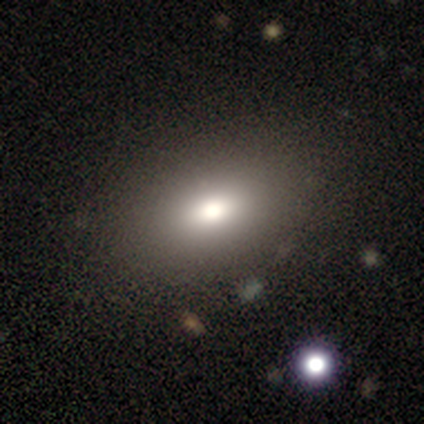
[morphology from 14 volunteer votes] smooth 71%, featured or disk 21%, star or artifact 7%. Down the decision tree: how rounded — in between (80%); merging — none (100%).